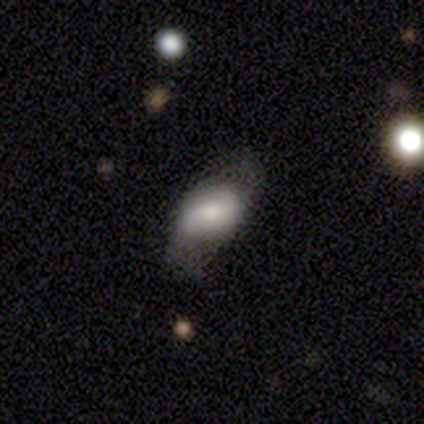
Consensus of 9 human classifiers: A smooth galaxy with no disk features (44%, tied with featured or disk) that is in between round and cigar-shaped (75%).

Vote fractions:
- Smooth or featured? smooth: 44% (tied) / featured or disk: 44% (tied) / star or artifact: 11%
- How rounded? in between: 75% / round: 25% / cigar-shaped: 0%
- Merging? none: 75% / minor disturbance: 12% / major disturbance: 12% / merger: 0%